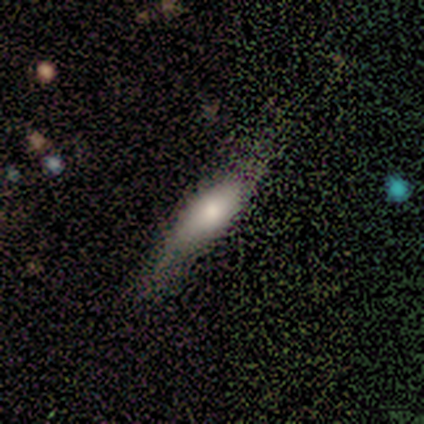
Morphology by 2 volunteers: A smooth galaxy with no disk features (100%) that is in between round and cigar-shaped (50%, tied with cigar-shaped). Merging: none (50%, tied with minor disturbance).